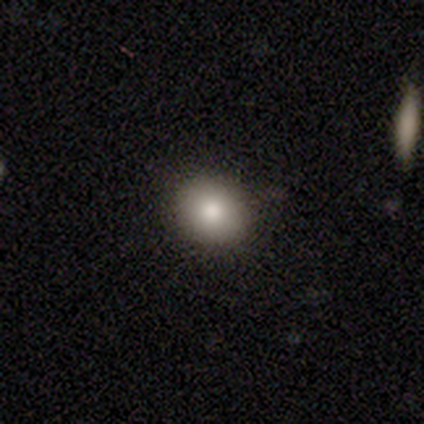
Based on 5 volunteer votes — Smooth or featured? 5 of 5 (100%) said smooth. How rounded? 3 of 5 (60%) said round. Merging? 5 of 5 (100%) said none.